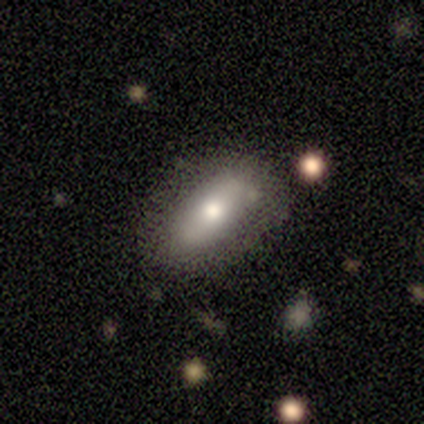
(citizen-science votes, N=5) Smooth or featured? smooth (60%)
How rounded? in between (100%)
Merging? none (60%)